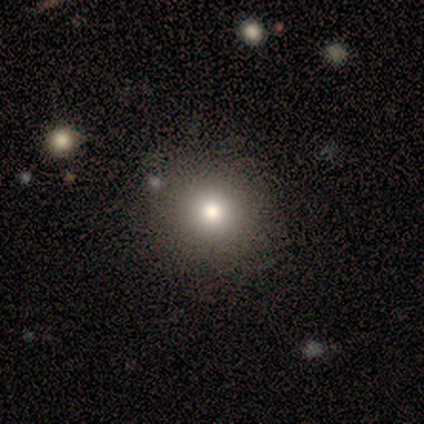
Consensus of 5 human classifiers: smooth 80%, star or artifact 20%, featured or disk 0%. Down the decision tree: how rounded — round (100%); merging — none (75%).